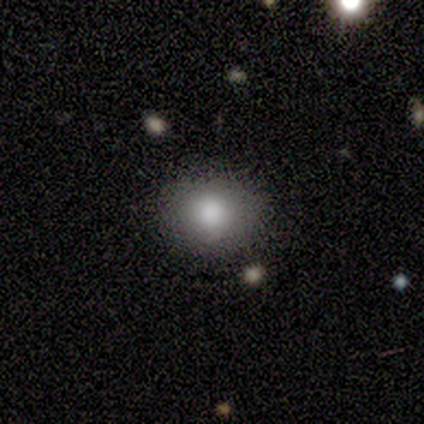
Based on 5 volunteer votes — smooth 100%, featured or disk 0%, star or artifact 0%. Down the decision tree: how rounded — round (60%); merging — none (80%).